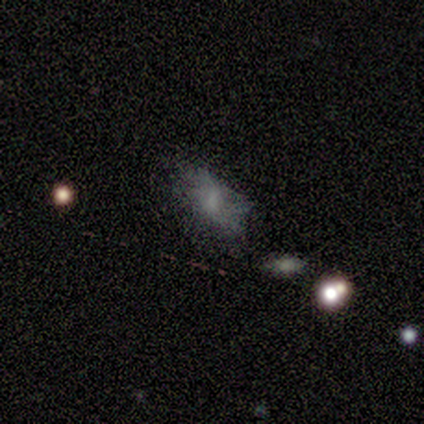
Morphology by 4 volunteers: Volunteers were most divided on "how rounded": in between: 75%, cigar-shaped: 25%, round: 0%. More confident: smooth or featured — smooth (100%); merging — minor disturbance (75%).